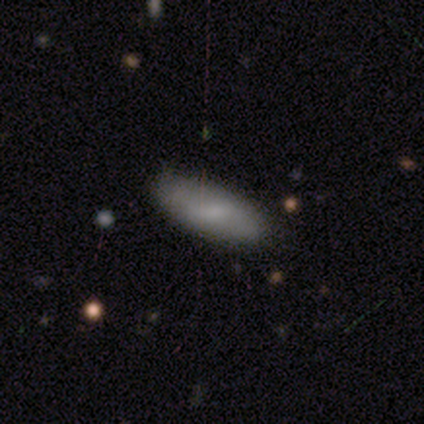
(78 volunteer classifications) A smooth galaxy with no disk features (81%) that is in between round and cigar-shaped (84%). Merging: none (64%).